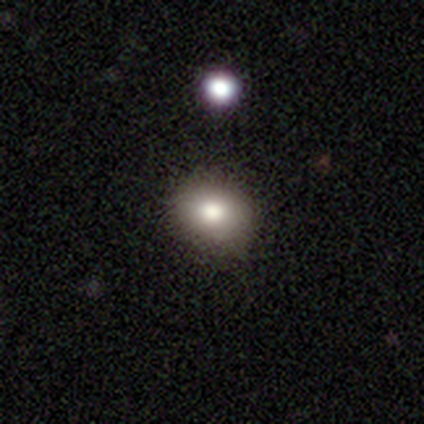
smooth_or_featured: smooth (p=0.82) [alt: featured or disk p=0.13]
how_rounded: round (p=0.59) [alt: in between p=0.38]
merging: none (p=0.97) [alt: minor disturbance p=0.03]